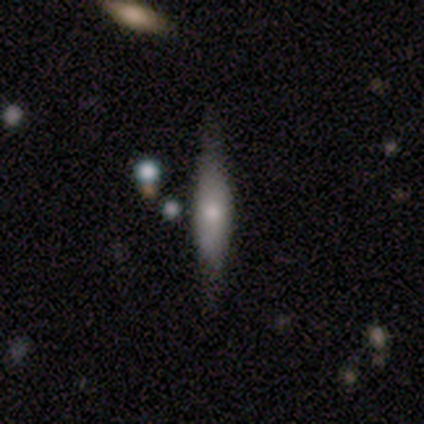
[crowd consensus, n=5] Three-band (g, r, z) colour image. It shows a smooth galaxy with no disk features (80%) that is cigar-shaped (100%). Merging: none (100%).